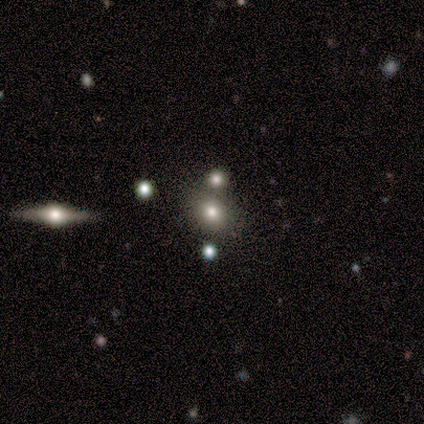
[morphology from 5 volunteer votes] A smooth galaxy with no disk features (60%) that is round (100%).

Vote fractions:
- Smooth or featured? smooth: 60% / star or artifact: 40% / featured or disk: 0%
- How rounded? round: 100% / in between: 0% / cigar-shaped: 0%
- Merging? none: 33% (tied) / minor disturbance: 33% (tied) / merger: 33% (tied) / major disturbance: 0%